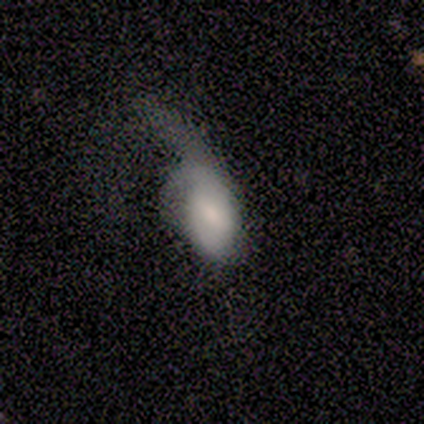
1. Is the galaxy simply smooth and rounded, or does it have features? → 80% smooth, 20% featured or disk, 0% star or artifact.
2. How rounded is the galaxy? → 75% in between, 25% cigar-shaped, 0% round.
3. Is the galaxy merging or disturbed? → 100% major disturbance, 0% none, 0% minor disturbance, 0% merger.